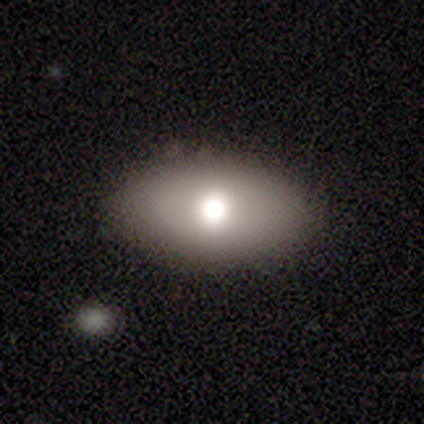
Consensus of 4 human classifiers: Q: Smooth or featured?
A: smooth (50%); runner-up: featured or disk (25%)
Q: How rounded?
A: in between (100%)
Q: Merging?
A: none (100%)